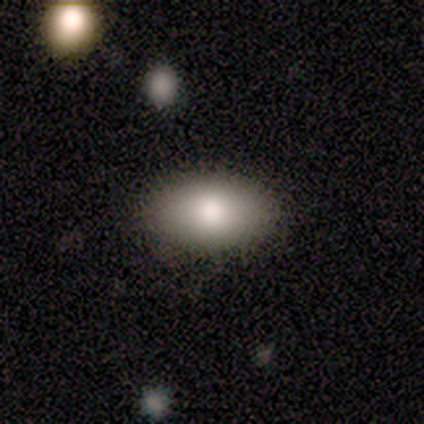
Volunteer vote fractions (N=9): smooth-or-featured: smooth: 89% | star or artifact: 11% | featured or disk: 0%
  how-rounded: in between: 100% | round: 0% | cigar-shaped: 0%
  merging: none: 100% | minor disturbance: 0% | major disturbance: 0% | merger: 0%